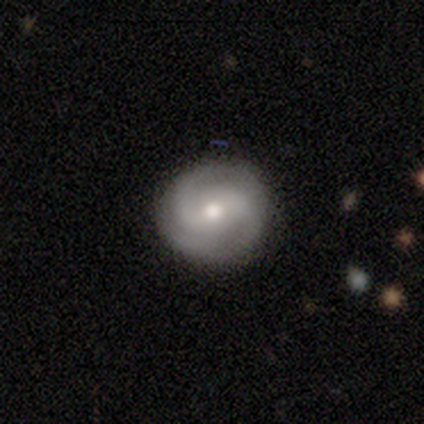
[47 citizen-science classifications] Smooth or featured?
  - featured or disk: 72% *
  - smooth: 23%
  - star or artifact: 4%
Edge-on disk?
  - no: 100% *
  - yes: 0%
Bar?
  - weak: 53% *
  - no: 35%
  - strong: 12%
Spiral arms?
  - yes: 88% *
  - no: 12%
Spiral winding?
  - medium: 50% *
  - tight: 43%
  - loose: 7%
Spiral arm count?
  - 2: 50% *
  - 3: 40%
  - can't tell: 10%
  - 1: 0%
  - 4: 0%
  - more than 4: 0%
Bulge size?
  - moderate: 79% *
  - small: 21%
  - dominant: 0%
  - large: 0%
  - none: 0%
Merging?
  - none: 98% *
  - major disturbance: 2%
  - minor disturbance: 0%
  - merger: 0%